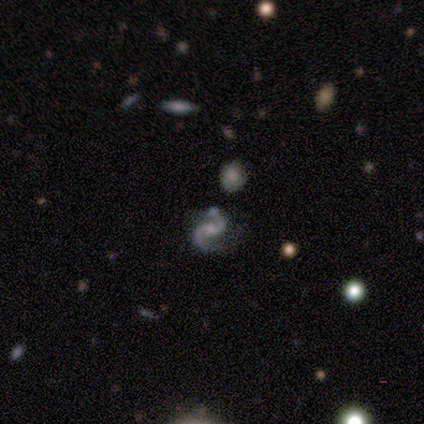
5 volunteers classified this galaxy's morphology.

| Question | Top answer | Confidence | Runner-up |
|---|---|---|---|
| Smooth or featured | featured or disk | 100% | — |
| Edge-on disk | no | 100% | — |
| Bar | weak | 60% | no (40%) |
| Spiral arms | yes | 100% | — |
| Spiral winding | medium | 80% | loose (20%) |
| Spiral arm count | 2 | 100% | — |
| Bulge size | moderate | 60% | small (20%) |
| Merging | none | 80% | minor disturbance (20%) |